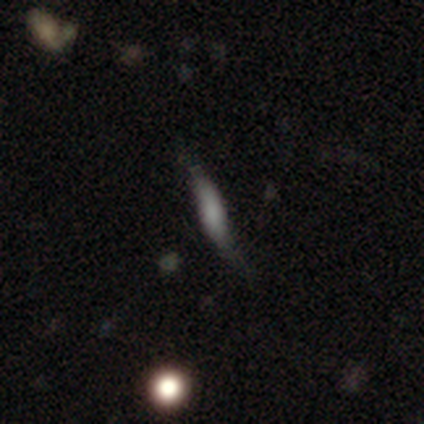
Smooth or featured?
  - smooth: 100% *
  - featured or disk: 0%
  - star or artifact: 0%
How rounded?
  - cigar-shaped: 100% *
  - round: 0%
  - in between: 0%
Merging?
  - none: 67% *
  - minor disturbance: 33%
  - major disturbance: 0%
  - merger: 0%